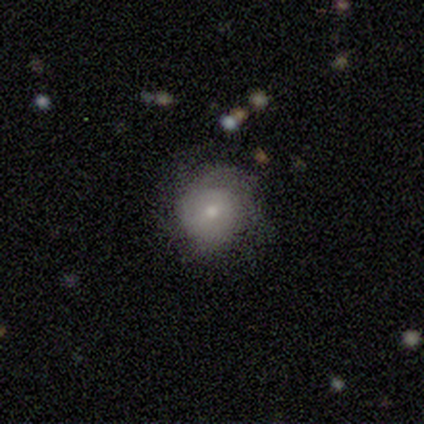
Overall: smooth (55%; featured or disk 39%). How rounded: round (81%). Merging: none (75%).